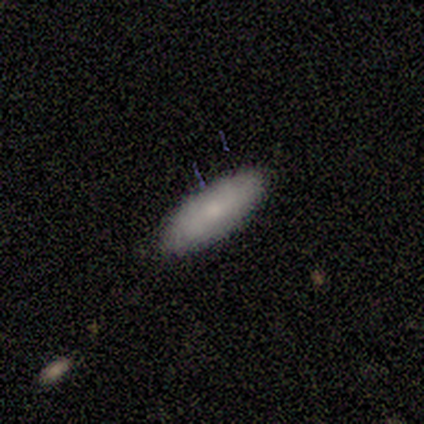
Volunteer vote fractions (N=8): Q: Smooth or featured?
A: smooth (62%); runner-up: featured or disk (38%)
Q: How rounded?
A: in between (80%); runner-up: cigar-shaped (20%)
Q: Merging?
A: none (75%); runner-up: minor disturbance (12%)